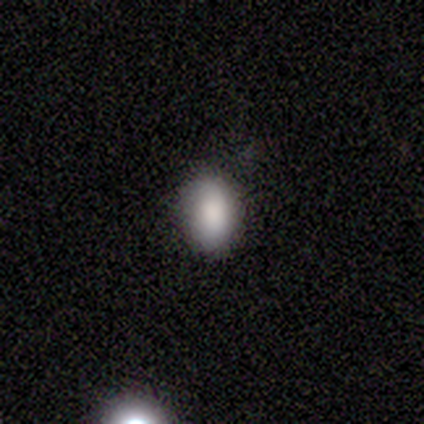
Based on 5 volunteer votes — This appears to be a smooth galaxy with no disk features (100%) that is in between round and cigar-shaped (60%). Merging: none (100%).